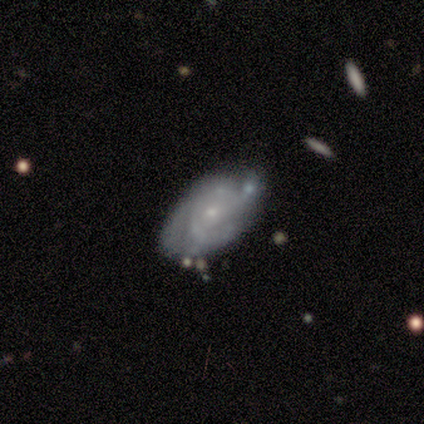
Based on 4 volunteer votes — This is clearly a featured or disk galaxy (100%). It is clearly not viewed edge-on (100%). Bar: clearly no (100%). Spiral arm pattern: clearly yes (100%). Spiral arm count: possibly 3 (50%, tied with can't tell). Spiral winding: likely tight (75%). Central bulge: clearly small (100%). Merging: likely none (75%).